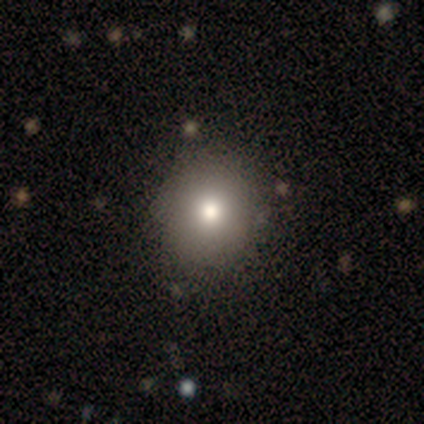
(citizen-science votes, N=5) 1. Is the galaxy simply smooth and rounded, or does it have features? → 60% smooth, 20% featured or disk, 20% star or artifact.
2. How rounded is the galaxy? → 67% round, 33% in between, 0% cigar-shaped.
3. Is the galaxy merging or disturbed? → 75% none, 25% minor disturbance, 0% major disturbance, 0% merger.